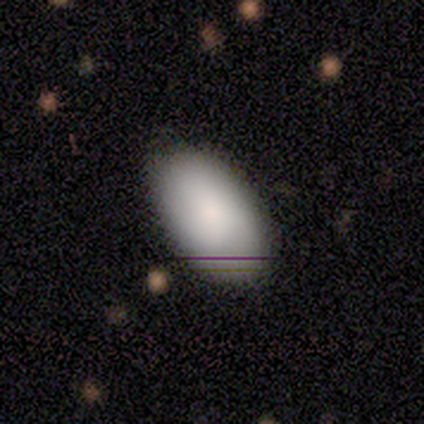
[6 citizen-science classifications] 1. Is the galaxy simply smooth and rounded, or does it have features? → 83% smooth, 17% featured or disk, 0% star or artifact.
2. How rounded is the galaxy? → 100% in between, 0% round, 0% cigar-shaped.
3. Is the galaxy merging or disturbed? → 83% none, 17% minor disturbance, 0% major disturbance, 0% merger.